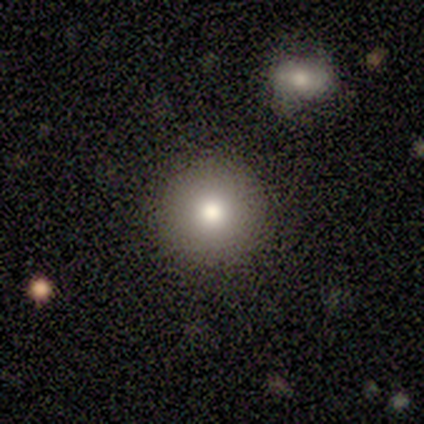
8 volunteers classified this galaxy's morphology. Q: Smooth or featured?
A: smooth (75%); runner-up: featured or disk (25%)
Q: How rounded?
A: round (100%)
Q: Merging?
A: none (88%); runner-up: minor disturbance (12%)